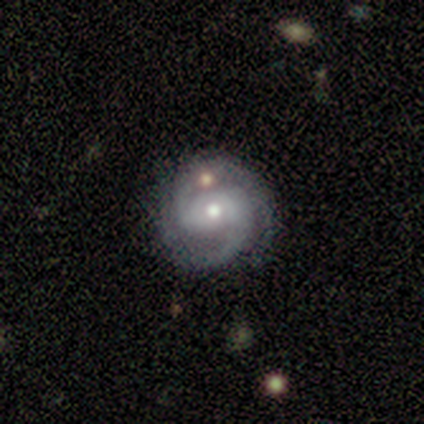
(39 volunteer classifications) A featured or disk galaxy (77%) with a weak bar (53%), 2 (87%) tight (50%) spiral arms (100%) and a moderate central bulge (50%). Merging: none (83%).